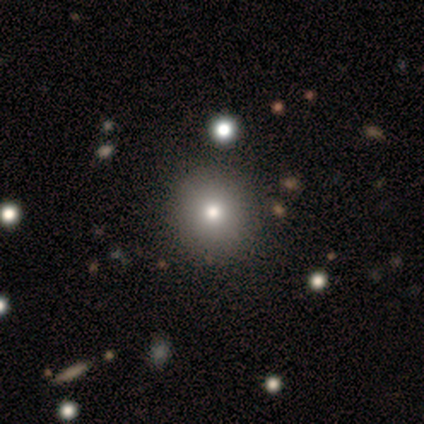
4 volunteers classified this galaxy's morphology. Smooth or featured: smooth — 75% (star or artifact — 25%)
How rounded: round — 100%
Merging: none — 100%